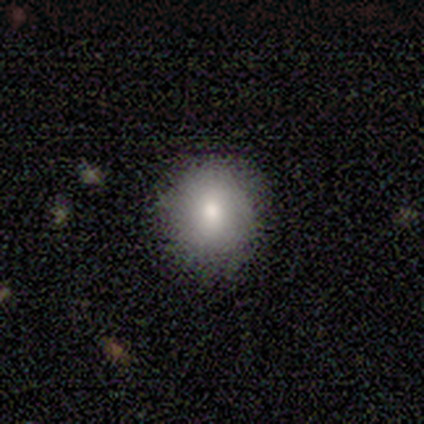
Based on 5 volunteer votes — This appears to be a smooth galaxy with no disk features (80%) that is round (100%). Merging: none (100%).